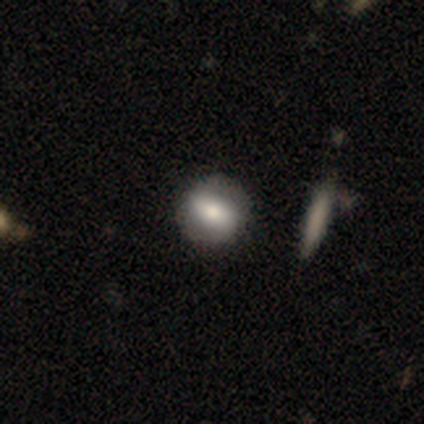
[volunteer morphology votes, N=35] smooth-or-featured: featured or disk: 54% | smooth: 37% | star or artifact: 9%
  disk-edge-on: no: 95% | yes: 5%
    bar: weak: 50% | strong: 39% | no: 11%
    has-spiral-arms: no: 61% | yes: 39%
    bulge-size: moderate: 50% | large: 28% | dominant: 17% | small: 6% | none: 0%
  merging: none: 91% | minor disturbance: 6% | merger: 3% | major disturbance: 0%